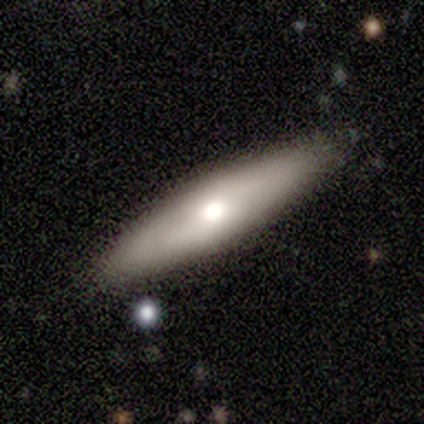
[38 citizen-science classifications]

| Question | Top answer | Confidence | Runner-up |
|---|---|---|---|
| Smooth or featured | smooth | 66% | featured or disk (34%) |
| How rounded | cigar-shaped | 88% | in between (12%) |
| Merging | none | 89% | minor disturbance (11%) |